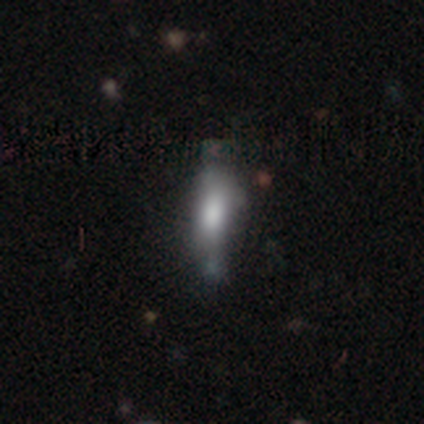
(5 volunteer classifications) Smooth or featured: smooth — 60% (featured or disk — 40%)
How rounded: in between — 100%
Merging: none — 40% (tied with minor disturbance — 40%)